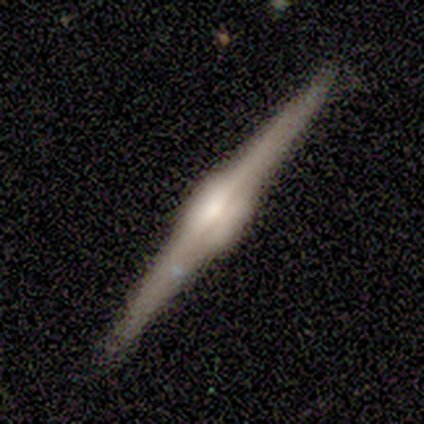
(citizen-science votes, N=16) Smooth or featured? 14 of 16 (88%) said featured or disk. Edge-on disk? 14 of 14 (100%) said yes. Edge-on bulge? 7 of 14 (50%, tied with rounded) said boxy. Merging? 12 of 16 (75%) said none.